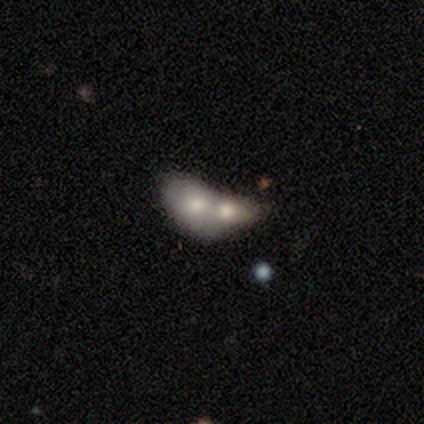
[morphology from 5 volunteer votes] A smooth galaxy with no disk features (60%) that is round (67%). Merging: merger (100%).